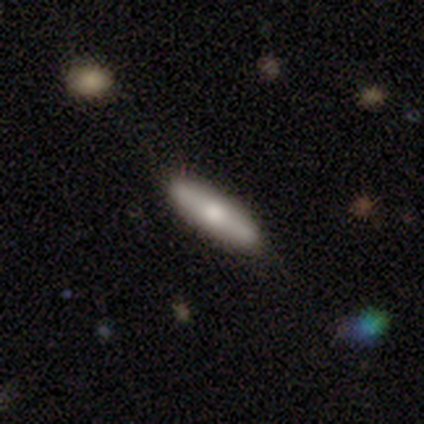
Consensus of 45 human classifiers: Overall: smooth (62%; featured or disk 29%). How rounded: cigar-shaped (61%; in between 39%). Merging: none (90%).